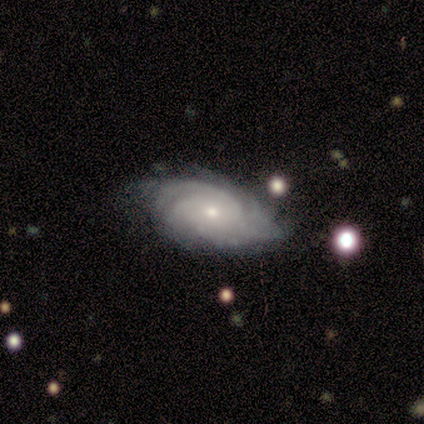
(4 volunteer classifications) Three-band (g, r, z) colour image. It shows a featured or disk galaxy (50%) with no bar (100%), tight (100%) spiral arms (100%) and a moderate central bulge (50%, tied with small). Merging: none (100%).